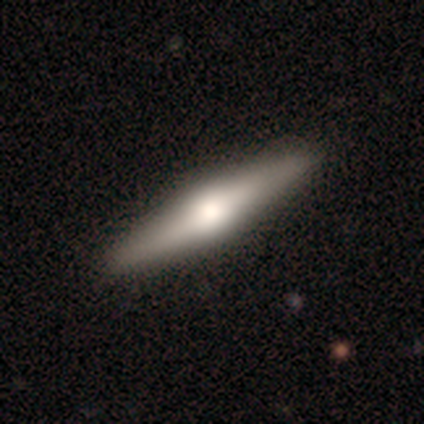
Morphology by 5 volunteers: Smooth or featured: featured or disk — 60% (smooth — 20%)
Edge-on disk: yes — 100%
Edge-on bulge: rounded — 100%
Merging: none — 100%